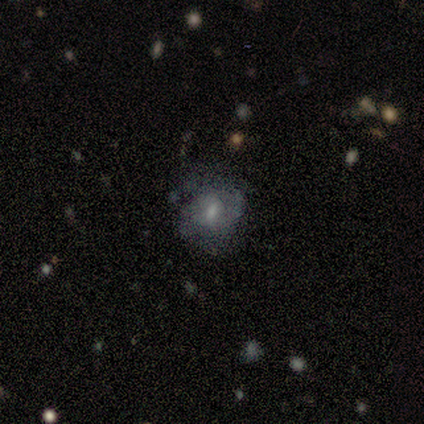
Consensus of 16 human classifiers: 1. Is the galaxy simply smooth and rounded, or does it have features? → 75% featured or disk, 25% smooth, 0% star or artifact.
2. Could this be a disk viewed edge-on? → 92% no, 8% yes.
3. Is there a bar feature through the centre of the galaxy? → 55% weak, 27% no, 18% strong.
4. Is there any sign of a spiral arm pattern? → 91% yes, 9% no.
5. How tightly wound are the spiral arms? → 60% tight, 40% medium, 0% loose.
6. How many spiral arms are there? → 50% can't tell, 20% 1, 20% 2, 10% 4, 0% 3, 0% more than 4.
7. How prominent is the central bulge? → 55% small, 36% moderate, 9% large, 0% dominant, 0% none.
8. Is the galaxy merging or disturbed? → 56% none, 38% minor disturbance, 6% major disturbance, 0% merger.